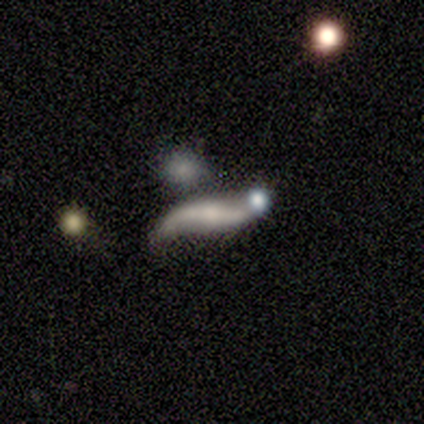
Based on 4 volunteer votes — Smooth or featured?
  - featured or disk: 100% *
  - smooth: 0%
  - star or artifact: 0%
Edge-on disk?
  - no: 100% *
  - yes: 0%
Bar?
  - weak: 50% *
  - strong: 25%
  - no: 25%
Spiral arms?
  - yes: 100% *
  - no: 0%
Spiral winding?
  - loose: 100% *
  - tight: 0%
  - medium: 0%
Spiral arm count?
  - 2: 75% *
  - can't tell: 25%
  - 1: 0%
  - 3: 0%
  - 4: 0%
  - more than 4: 0%
Bulge size?
  - moderate: 50% *
  - small: 25%
  - none: 25%
  - dominant: 0%
  - large: 0%
Merging?
  - none: 100% *
  - minor disturbance: 0%
  - major disturbance: 0%
  - merger: 0%